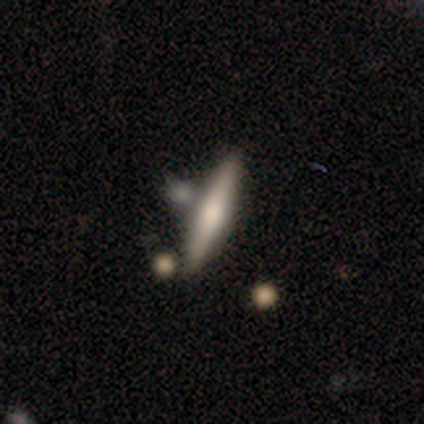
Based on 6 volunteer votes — Overall: featured or disk (83%). Edge-on disk: yes (100%). Edge-on bulge: rounded (100%). Merging: none (67%).